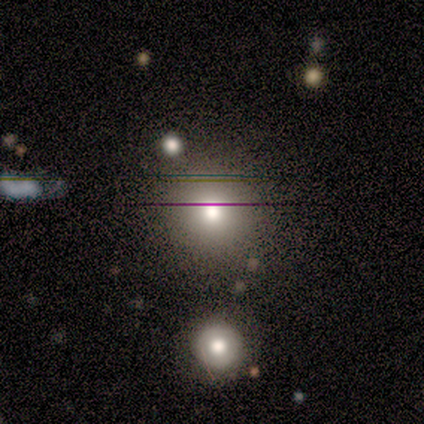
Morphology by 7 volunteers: smooth 86%, star or artifact 14%, featured or disk 0%. Down the decision tree: how rounded — round (100%); merging — none (67%).